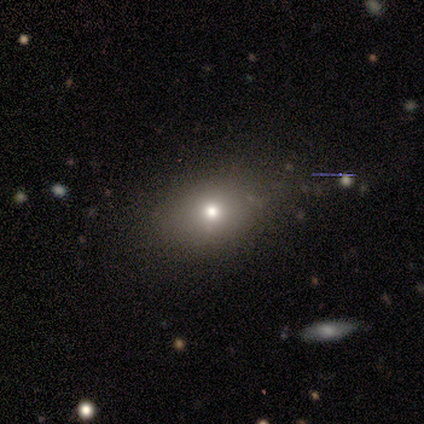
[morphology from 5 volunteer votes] Q: Smooth or featured?
A: smooth (60%); runner-up: featured or disk (20%)
Q: How rounded?
A: in between (67%); runner-up: round (33%)
Q: Merging?
A: none (100%)